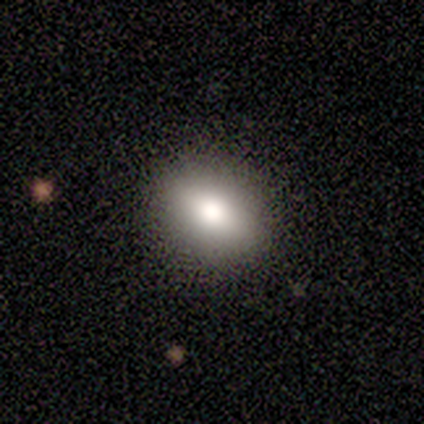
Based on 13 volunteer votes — smooth_or_featured: smooth (p=0.85) [alt: featured or disk p=0.15]
how_rounded: in between (p=0.73) [alt: round p=0.27]
merging: none (p=0.85) [alt: minor disturbance p=0.08]